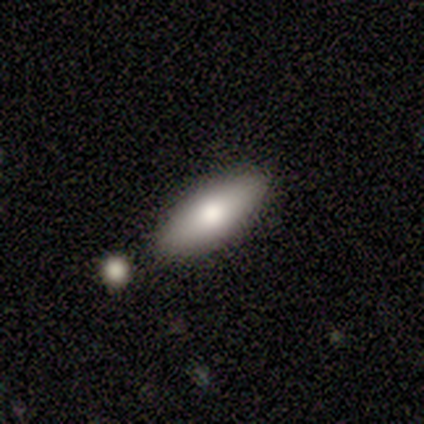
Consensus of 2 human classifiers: smooth-or-featured: smooth: 100% | featured or disk: 0% | star or artifact: 0%
  how-rounded: in between: 100% | round: 0% | cigar-shaped: 0%
  merging: minor disturbance: 50% (tied) | merger: 50% (tied) | none: 0% | major disturbance: 0%